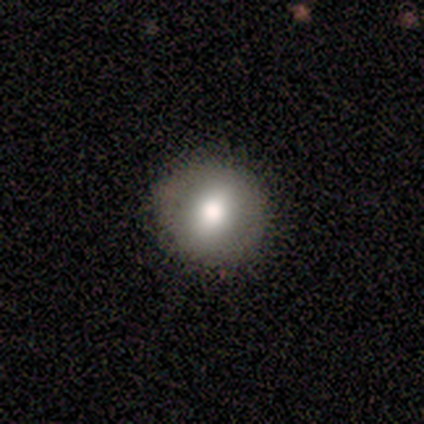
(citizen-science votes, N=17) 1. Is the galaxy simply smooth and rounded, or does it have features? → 71% smooth, 18% star or artifact, 12% featured or disk.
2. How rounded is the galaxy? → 67% round, 25% in between, 8% cigar-shaped.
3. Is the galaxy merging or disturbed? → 93% none, 7% major disturbance, 0% minor disturbance, 0% merger.